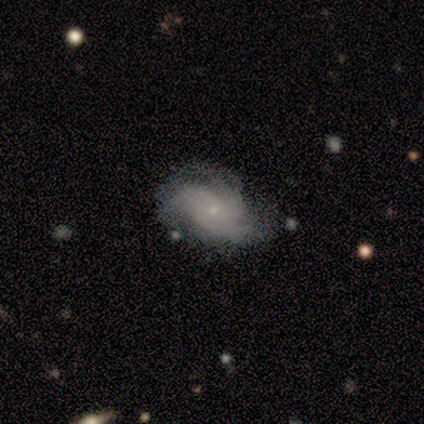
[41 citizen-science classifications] Morphology: type=featured or disk (83%); edge-on=no (97%); bar=no (76%); spiral arms=yes (94%); winding=medium (58%); arm count=3 (55%); bulge=small (85%); merging=none (59%).